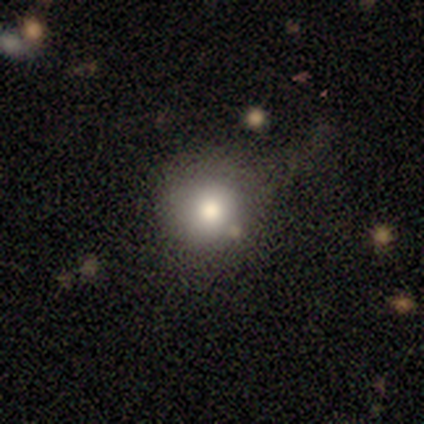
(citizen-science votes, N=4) This appears to be a smooth galaxy with no disk features (75%) that is round (100%). Merging: none (75%).